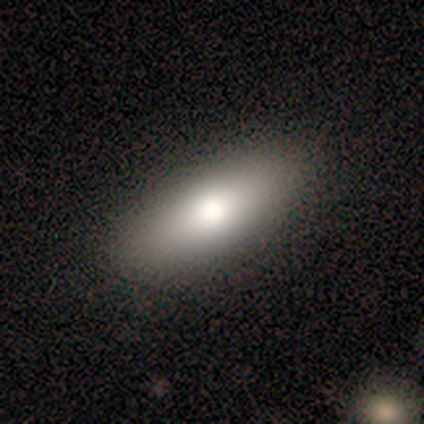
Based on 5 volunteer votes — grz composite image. It shows a smooth galaxy with no disk features (80%) that is in between round and cigar-shaped (50%, tied with cigar-shaped). Merging: none (100%).